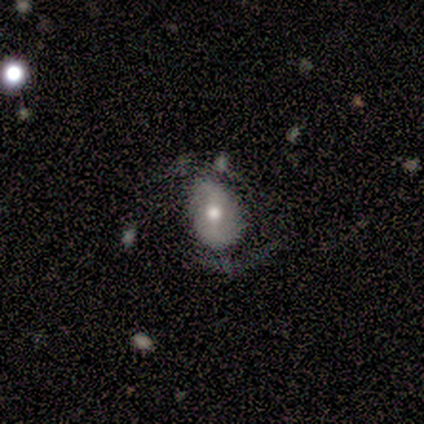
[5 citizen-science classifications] Smooth or featured: smooth — 60% (featured or disk — 40%)
How rounded: in between — 100%
Merging: none — 40% (tied with major disturbance — 40%)